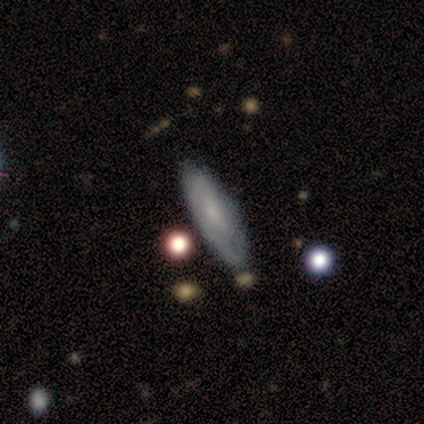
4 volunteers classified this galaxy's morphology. Smooth or featured? smooth (50%, tied with featured or disk)
How rounded? in between (50%, tied with cigar-shaped)
Merging? none (75%)